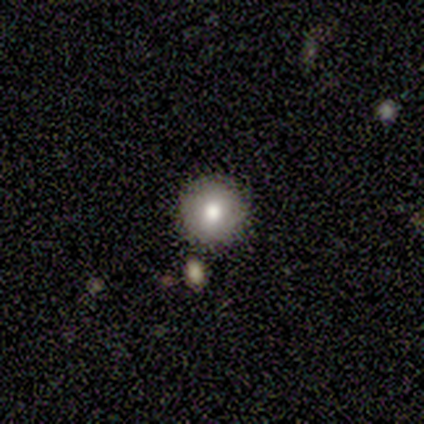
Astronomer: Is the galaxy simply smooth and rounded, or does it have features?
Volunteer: smooth — 80%.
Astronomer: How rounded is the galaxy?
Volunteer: round — 100%.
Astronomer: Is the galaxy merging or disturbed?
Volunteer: none — 100%.